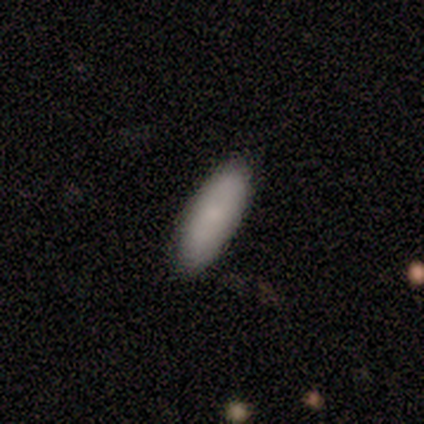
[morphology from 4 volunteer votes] Overall: smooth (100%). How rounded: in between (75%). Merging: none (75%).